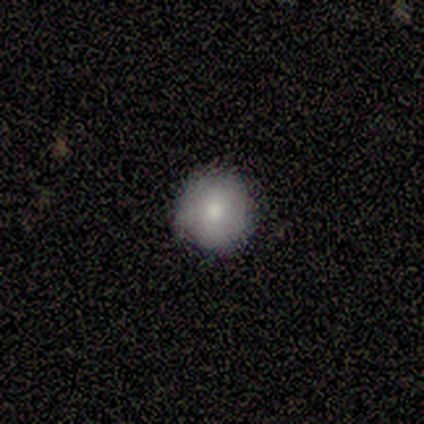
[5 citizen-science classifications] This is clearly a smooth galaxy (80%). How rounded: clearly round (100%). Merging: clearly none (80%).